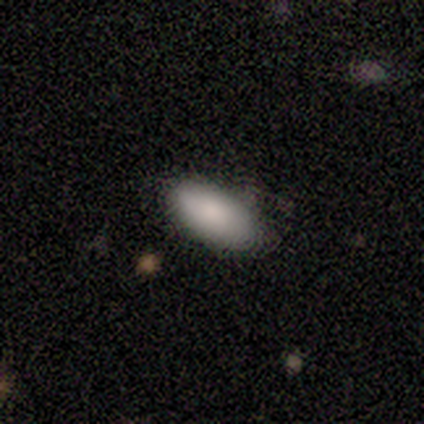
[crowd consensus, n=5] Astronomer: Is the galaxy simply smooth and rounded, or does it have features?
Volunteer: smooth — 100%.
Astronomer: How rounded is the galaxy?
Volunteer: in between — 100%.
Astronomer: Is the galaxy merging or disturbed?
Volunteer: none — 100%.